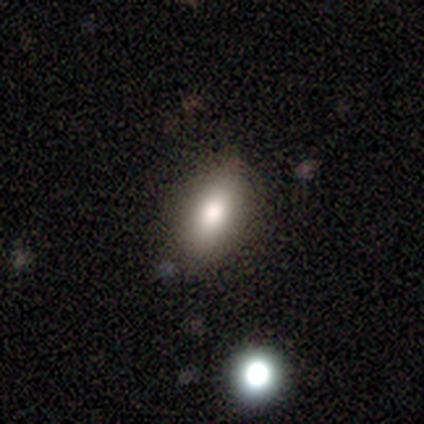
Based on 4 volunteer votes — Smooth or featured: smooth — 100%
How rounded: in between — 50% (round — 25%)
Merging: none — 100%